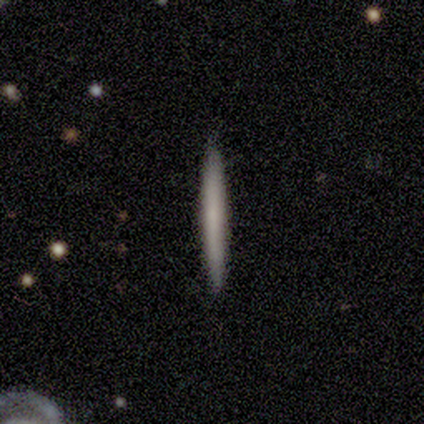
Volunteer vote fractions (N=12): A smooth galaxy with no disk features (83%) that is cigar-shaped (100%). Merging: none (100%).